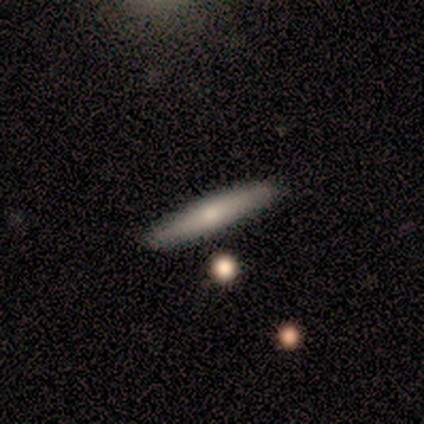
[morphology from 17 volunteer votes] Smooth or featured: smooth — 76% (featured or disk — 24%)
How rounded: cigar-shaped — 100%
Merging: none — 88% (minor disturbance — 12%)